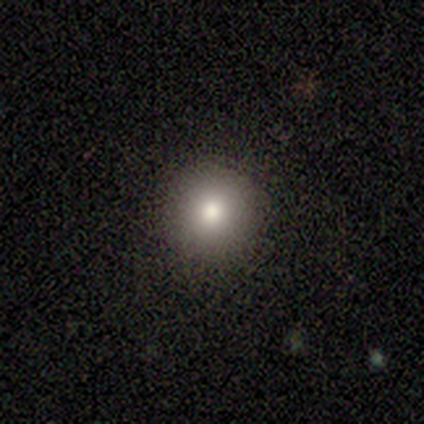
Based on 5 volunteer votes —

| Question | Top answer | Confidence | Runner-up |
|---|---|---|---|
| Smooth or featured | smooth | 60% | featured or disk (20%) |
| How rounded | round | 100% | — |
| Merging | none | 100% | — |